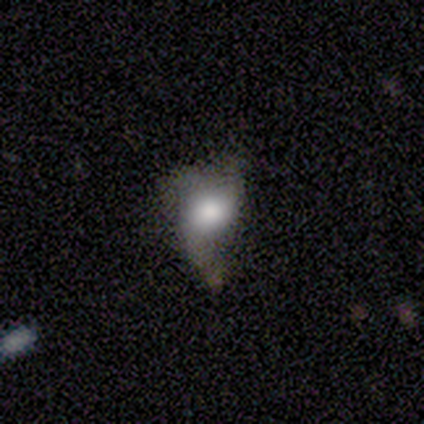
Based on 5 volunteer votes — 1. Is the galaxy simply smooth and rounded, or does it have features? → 80% featured or disk, 20% smooth, 0% star or artifact.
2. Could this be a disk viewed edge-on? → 100% no, 0% yes.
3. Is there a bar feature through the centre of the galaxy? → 100% no, 0% strong, 0% weak.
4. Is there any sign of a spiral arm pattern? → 50% yes (tied), 50% no (tied).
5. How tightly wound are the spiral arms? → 50% tight (tied), 50% loose (tied), 0% medium.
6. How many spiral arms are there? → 50% 1 (tied), 50% 3 (tied), 0% 2, 0% 4, 0% more than 4, 0% can't tell.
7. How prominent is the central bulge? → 50% dominant, 25% moderate, 25% none, 0% large, 0% small.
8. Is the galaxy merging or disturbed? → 40% none (tied), 40% minor disturbance (tied), 20% major disturbance, 0% merger.